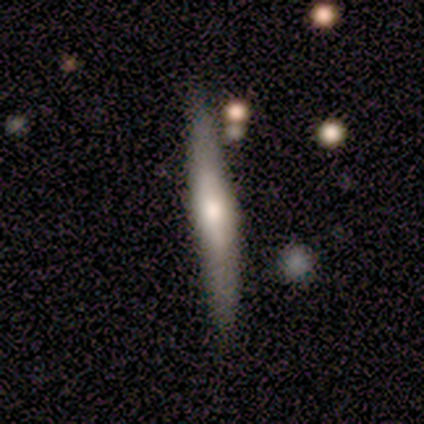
Morphology: type=smooth (47%, tied with featured or disk); roundness=cigar-shaped (100%); merging=none (78%).